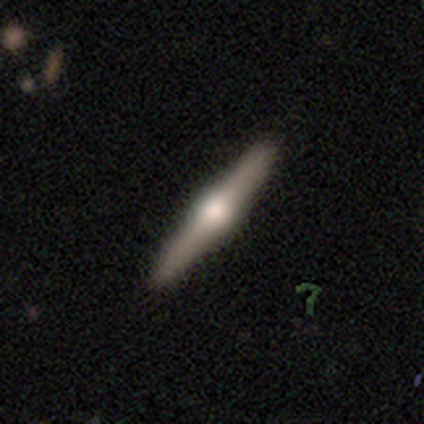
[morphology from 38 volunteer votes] smooth_or_featured: featured or disk (p=0.76) [alt: smooth p=0.18]
disk_edge_on: yes (p=1.00)
edge_on_bulge: rounded (p=0.93) [alt: boxy p=0.07]
merging: none (p=0.61)